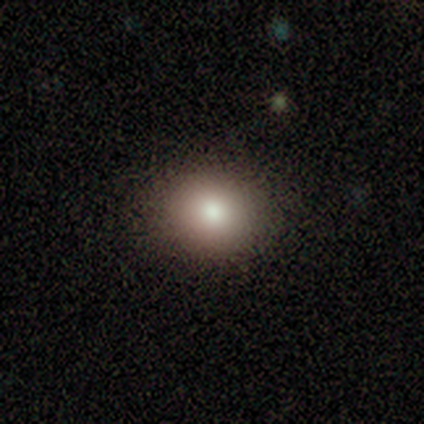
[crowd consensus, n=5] Morphology: type=smooth (80%); roundness=round (50%, tied with in between); merging=none (75%).